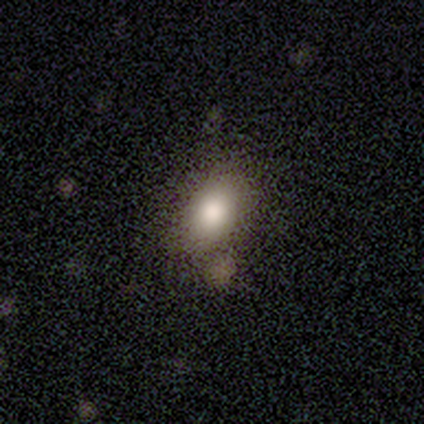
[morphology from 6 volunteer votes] Smooth or featured: smooth — 83% (star or artifact — 17%)
How rounded: in between — 100%
Merging: none — 60% (minor disturbance — 20%)